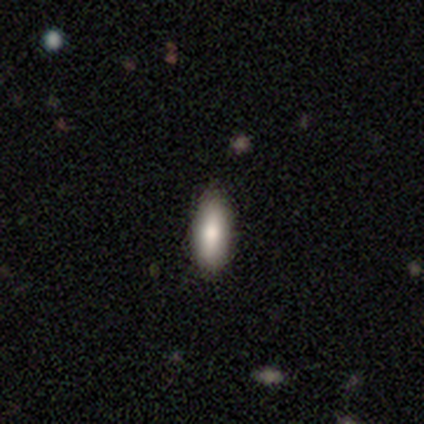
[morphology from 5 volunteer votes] A smooth galaxy with no disk features (100%) that is cigar-shaped (80%).

Vote fractions:
- Smooth or featured? smooth: 100% / featured or disk: 0% / star or artifact: 0%
- How rounded? cigar-shaped: 80% / in between: 20% / round: 0%
- Merging? minor disturbance: 60% / none: 40% / major disturbance: 0% / merger: 0%